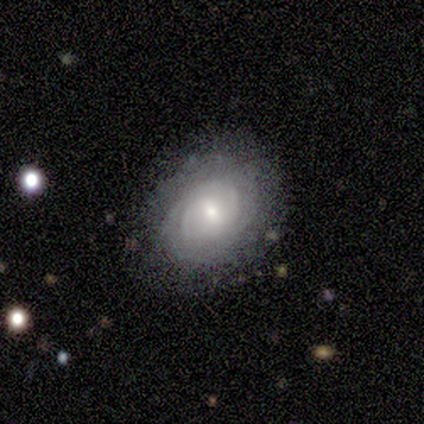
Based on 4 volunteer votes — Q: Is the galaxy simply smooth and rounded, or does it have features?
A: smooth — 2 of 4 (50%, tied with featured or disk).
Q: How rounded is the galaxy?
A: in between — 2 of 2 (100%).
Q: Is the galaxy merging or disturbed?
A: none — 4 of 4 (100%).